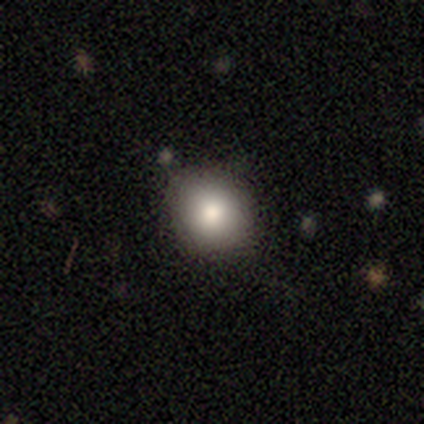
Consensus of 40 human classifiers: A smooth galaxy with no disk features (98%) that is round (82%). Merging: none (87%).